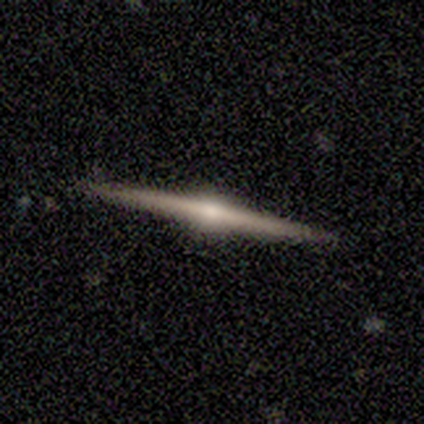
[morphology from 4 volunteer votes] smooth_or_featured: featured or disk (p=0.75) [alt: smooth p=0.25]
disk_edge_on: yes (p=1.00)
edge_on_bulge: rounded (p=1.00)
merging: none (p=1.00)